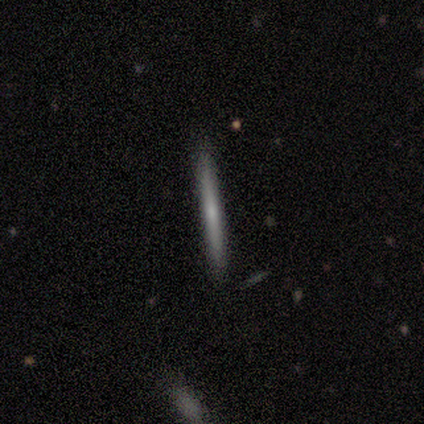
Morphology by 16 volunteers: This appears to be a featured or disk galaxy (56%) viewed edge-on (100%) with no central bulge (78%). Merging: none (81%).